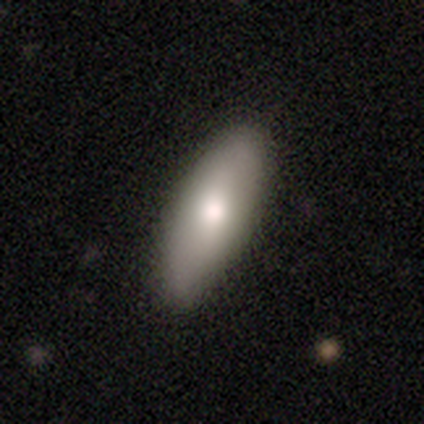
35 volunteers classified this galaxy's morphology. smooth 89%, featured or disk 11%, star or artifact 0%. Down the decision tree: how rounded — in between (94%); merging — none (74%).